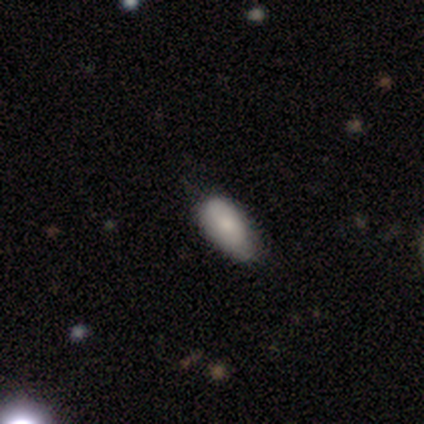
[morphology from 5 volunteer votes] A smooth galaxy with no disk features (80%) that is in between round and cigar-shaped (100%).

Vote fractions:
- Smooth or featured? smooth: 80% / featured or disk: 20% / star or artifact: 0%
- How rounded? in between: 100% / round: 0% / cigar-shaped: 0%
- Merging? none: 80% / minor disturbance: 20% / major disturbance: 0% / merger: 0%